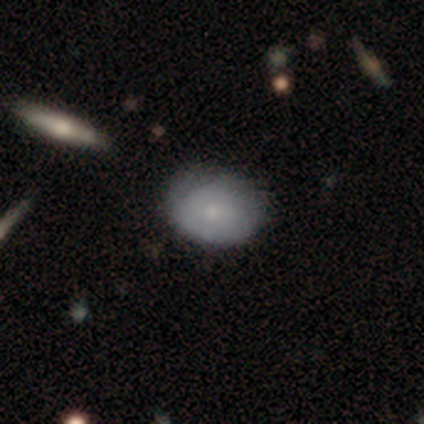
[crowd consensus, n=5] Morphology: type=smooth (60%); roundness=in between (100%); merging=none (25%, tied with minor disturbance, major disturbance and merger).